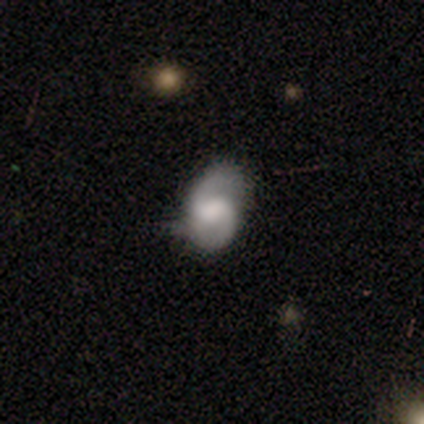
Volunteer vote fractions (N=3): Smooth or featured?
  - featured or disk: 67% *
  - smooth: 33%
  - star or artifact: 0%
Edge-on disk?
  - no: 100% *
  - yes: 0%
Bar?
  - weak: 50% * (tied)
  - no: 50% * (tied)
  - strong: 0%
Spiral arms?
  - yes: 100% *
  - no: 0%
Spiral winding?
  - loose: 100% *
  - tight: 0%
  - medium: 0%
Spiral arm count?
  - 2: 100% *
  - 1: 0%
  - 3: 0%
  - 4: 0%
  - more than 4: 0%
  - can't tell: 0%
Bulge size?
  - moderate: 50% * (tied)
  - small: 50% * (tied)
  - dominant: 0%
  - large: 0%
  - none: 0%
Merging?
  - none: 100% *
  - minor disturbance: 0%
  - major disturbance: 0%
  - merger: 0%